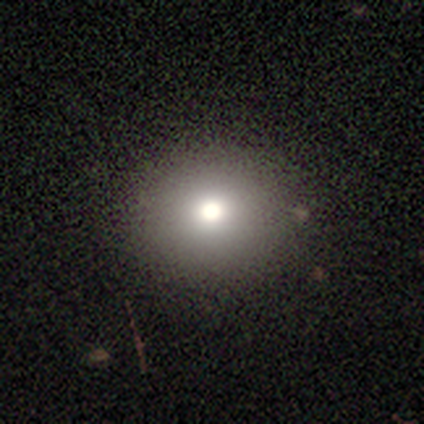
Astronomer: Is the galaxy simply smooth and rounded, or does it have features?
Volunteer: star or artifact — 50%.